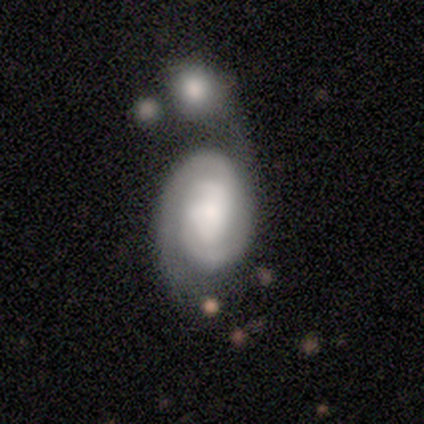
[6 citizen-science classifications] Smooth or featured? featured or disk (67%)
Edge-on disk? no (100%)
Bar? no (50%)
Spiral arms? yes (100%)
Spiral winding? tight (100%)
Spiral arm count? 2 (100%)
Bulge size? moderate (50%, tied with small)
Merging? merger (60%)